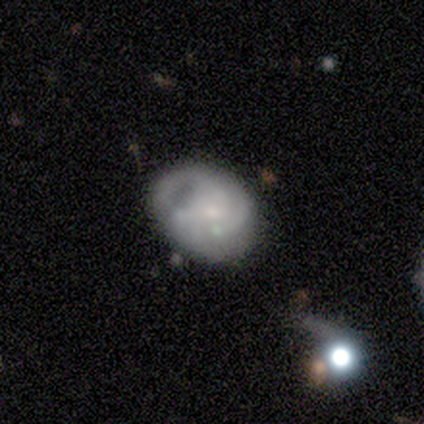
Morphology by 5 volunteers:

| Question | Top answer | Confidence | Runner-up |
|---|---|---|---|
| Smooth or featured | featured or disk | 100% | — |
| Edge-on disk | no | 100% | — |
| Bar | no | 60% | weak (40%) |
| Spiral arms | yes | 60% | no (40%) |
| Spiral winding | medium | 67% | tight (33%) |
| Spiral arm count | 3 | 67% | 2 (33%) |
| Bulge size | small | 60% | moderate (40%) |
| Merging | none | 60% | minor disturbance (40%) |